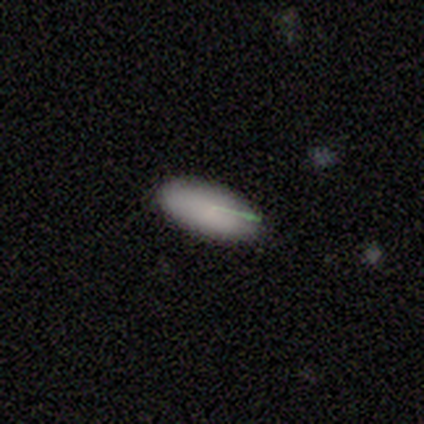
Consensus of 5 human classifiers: This is clearly a smooth galaxy (100%). How rounded: likely cigar-shaped (60%). Merging: clearly none (80%).